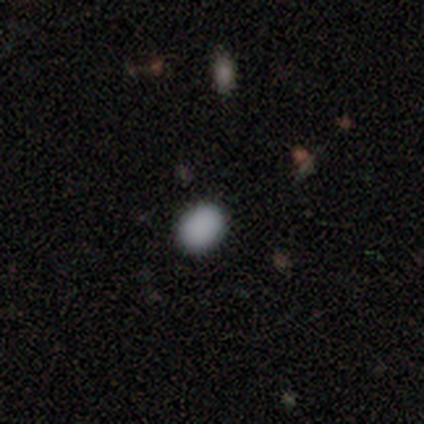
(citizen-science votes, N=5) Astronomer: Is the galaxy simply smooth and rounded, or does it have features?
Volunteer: smooth — 80%.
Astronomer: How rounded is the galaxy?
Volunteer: round — 50%, tied with in between at 50%.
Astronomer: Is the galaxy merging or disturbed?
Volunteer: none — 100%.